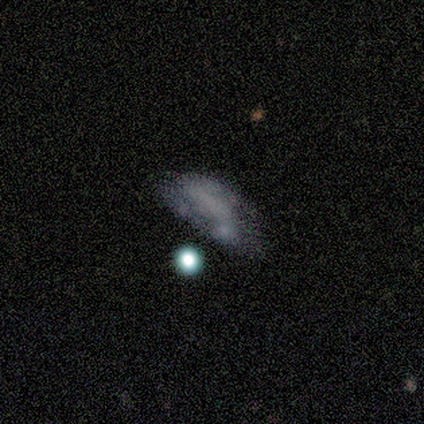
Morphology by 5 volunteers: Overall: smooth (60%; featured or disk 40%). How rounded: in between (100%). Merging: minor disturbance (60%; none 40%).